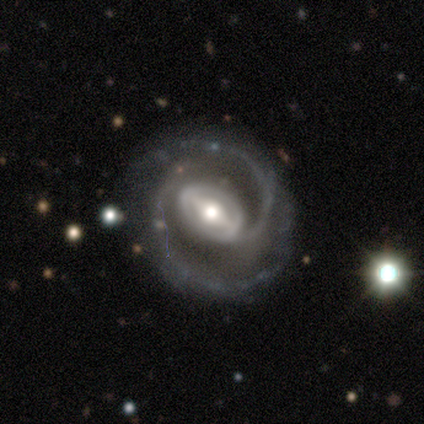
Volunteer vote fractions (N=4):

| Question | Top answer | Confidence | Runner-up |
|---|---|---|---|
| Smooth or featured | featured or disk | 100% | — |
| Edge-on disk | no | 100% | — |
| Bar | strong | 75% | weak (25%) |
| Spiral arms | yes | 100% | — |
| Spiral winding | tight | 50% | medium (25%) |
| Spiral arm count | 2 | 75% | can't tell (25%) |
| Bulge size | moderate | 50% | large (25%) |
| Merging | none | 75% | major disturbance (25%) |